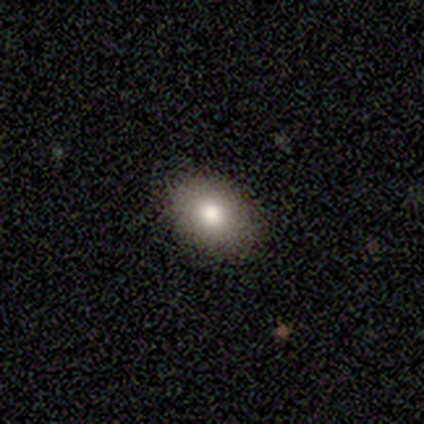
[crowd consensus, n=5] A featured or disk galaxy (60%) with no bar (100%), no spiral arms (100%) and a moderate central bulge (100%).

Vote fractions:
- Smooth or featured? featured or disk: 60% / smooth: 40% / star or artifact: 0%
- Edge-on disk? no: 100% / yes: 0%
- Bar? no: 100% / strong: 0% / weak: 0%
- Spiral arms? no: 100% / yes: 0%
- Bulge size? moderate: 100% / dominant: 0% / large: 0% / small: 0% / none: 0%
- Merging? none: 100% / minor disturbance: 0% / major disturbance: 0% / merger: 0%